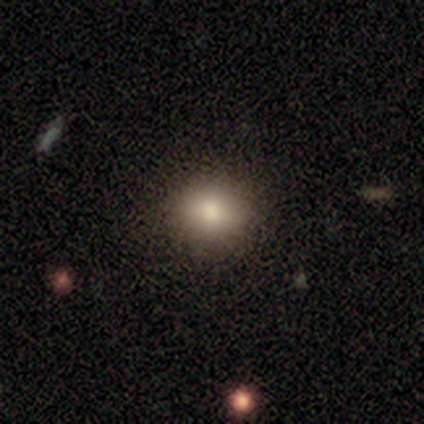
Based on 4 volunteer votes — Smooth or featured: smooth — 75% (star or artifact — 25%)
How rounded: round — 100%
Merging: none — 67% (minor disturbance — 33%)